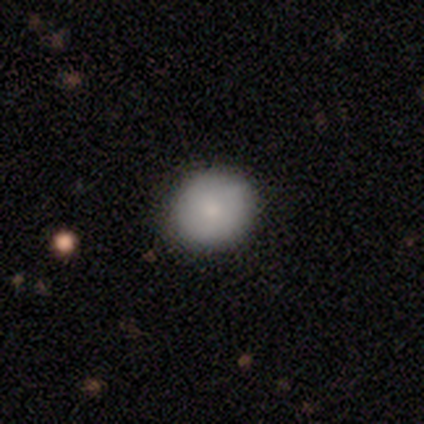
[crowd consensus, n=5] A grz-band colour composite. It shows a smooth galaxy with no disk features (80%) that is round (75%). Merging: none (100%).